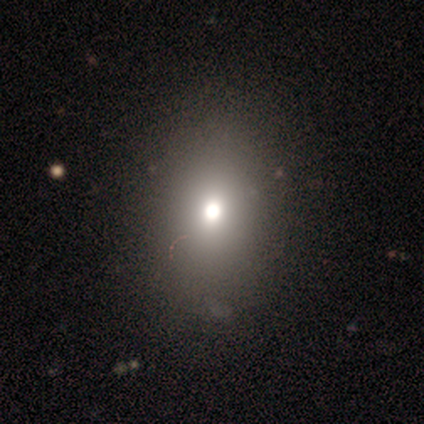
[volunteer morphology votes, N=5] Smooth or featured? 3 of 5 (60%) said smooth. How rounded? 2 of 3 (67%) said in between. Merging? 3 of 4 (75%) said none.